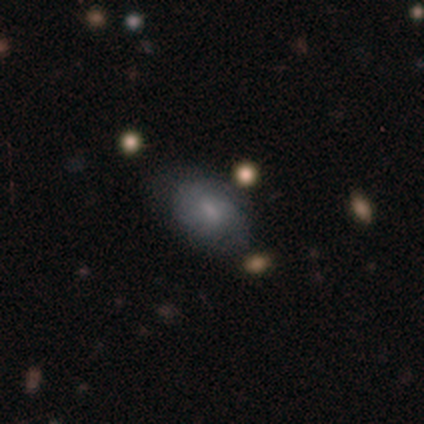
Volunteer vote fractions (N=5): This appears to be a featured or disk galaxy (60%) with no bar (100%), no spiral arms (67%) and a moderate central bulge (33%, tied with small and none). Merging: none (60%).